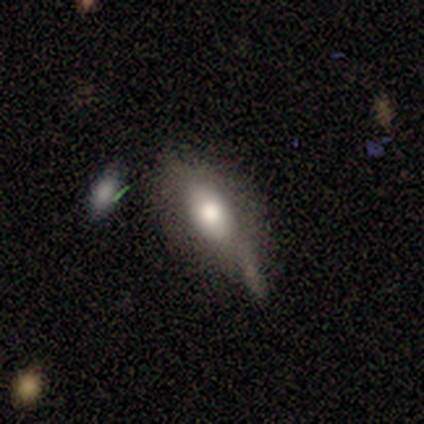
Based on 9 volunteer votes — Morphology: type=smooth (56%); roundness=in between (80%); merging=minor disturbance (67%).